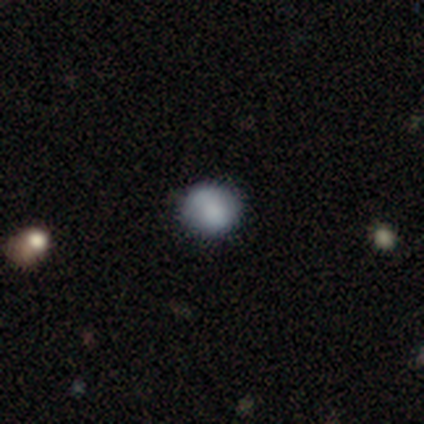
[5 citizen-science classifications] This is clearly a smooth galaxy (80%). How rounded: likely round (75%). Merging: clearly none (100%).